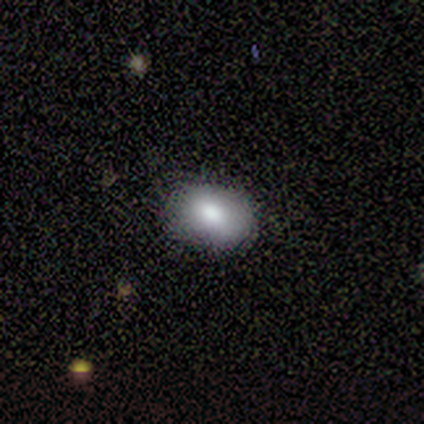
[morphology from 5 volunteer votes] Smooth or featured?
  - smooth: 80% *
  - featured or disk: 20%
  - star or artifact: 0%
How rounded?
  - in between: 100% *
  - round: 0%
  - cigar-shaped: 0%
Merging?
  - none: 100% *
  - minor disturbance: 0%
  - major disturbance: 0%
  - merger: 0%